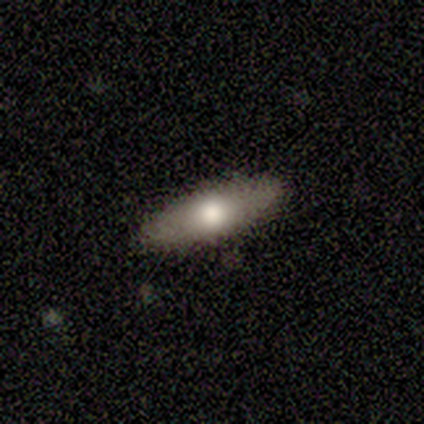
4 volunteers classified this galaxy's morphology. This appears to be a smooth galaxy with no disk features (75%) that is in between round and cigar-shaped (100%). Merging: none (100%).